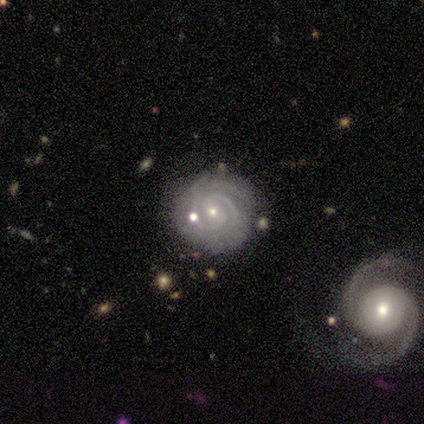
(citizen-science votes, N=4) This appears to be a featured or disk galaxy (100%) with no bar (75%), 2 (100%) tight (100%) spiral arms (100%) and a small central bulge (100%). Merging: none (75%).